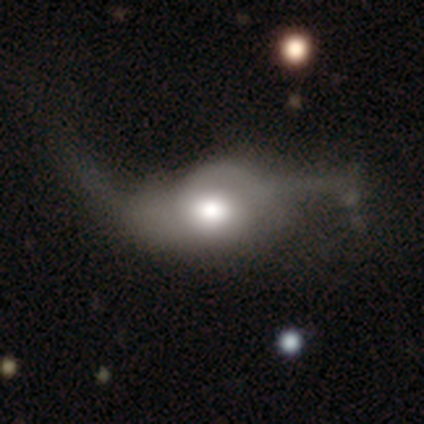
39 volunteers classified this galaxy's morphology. Smooth or featured? 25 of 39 (64%) said featured or disk. Edge-on disk? 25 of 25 (100%) said no. Bar? 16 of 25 (64%) said no. Spiral arms? 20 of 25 (80%) said yes. Spiral winding? 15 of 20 (75%) said loose. Spiral arm count? 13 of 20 (65%) said 2. Bulge size? 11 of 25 (44%) said large. Merging? 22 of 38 (58%) said major disturbance.